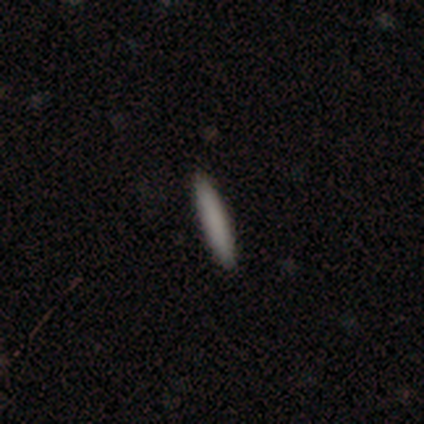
Overall: smooth (100%). How rounded: cigar-shaped (100%). Merging: none (100%).